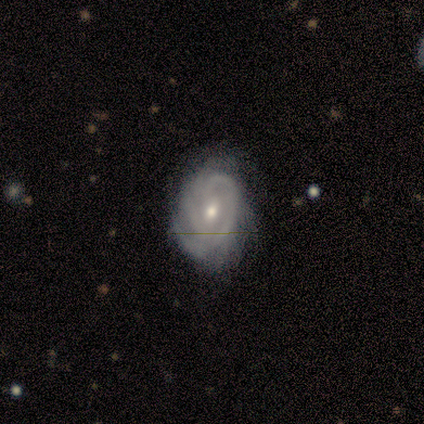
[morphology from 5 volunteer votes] Smooth or featured: featured or disk — 80% (smooth — 20%)
Edge-on disk: no — 100%
Bar: weak — 75% (no — 25%)
Spiral arms: yes — 75% (no — 25%)
Spiral winding: tight — 67% (medium — 33%)
Spiral arm count: 2 — 33% (tied with 3 — 33%; 4 — 33%)
Bulge size: moderate — 50% (tied with small — 50%)
Merging: none — 60% (minor disturbance — 40%)